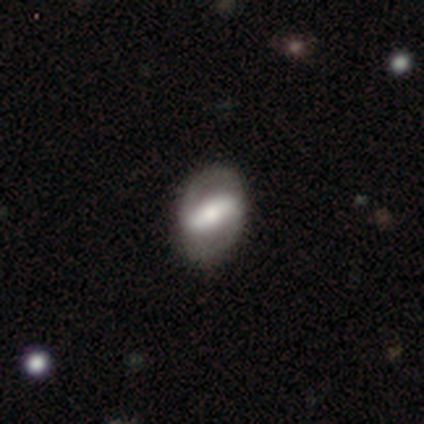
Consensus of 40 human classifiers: featured or disk 65%, smooth 32%, star or artifact 2%. Down the decision tree: edge-on disk — no (85%); bar — strong (68%); spiral arms — yes (50%, tied with no); spiral arm count — 2 (82%); spiral winding — medium (55%); bulge size — moderate (45%); merging — none (77%).